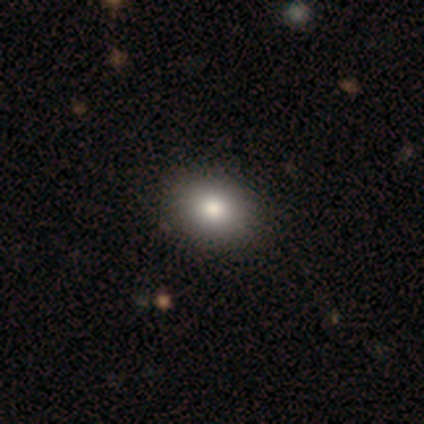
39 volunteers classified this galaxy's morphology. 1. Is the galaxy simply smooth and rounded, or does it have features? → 82% smooth, 13% featured or disk, 5% star or artifact.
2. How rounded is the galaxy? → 69% in between, 31% round, 0% cigar-shaped.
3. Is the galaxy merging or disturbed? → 70% none, 3% merger, 0% minor disturbance, 0% major disturbance.